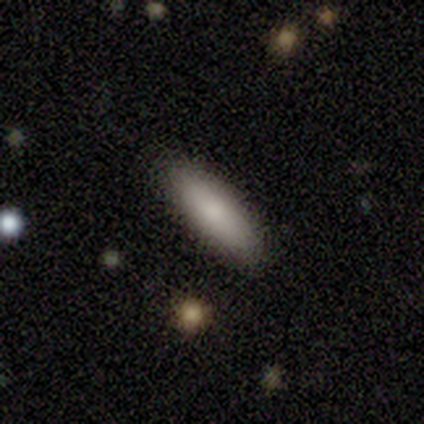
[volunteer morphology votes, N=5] Volunteers were most divided on "smooth or featured": smooth: 60%, featured or disk: 20%, star or artifact: 20%. More confident: how rounded — in between (100%); merging — none (100%).